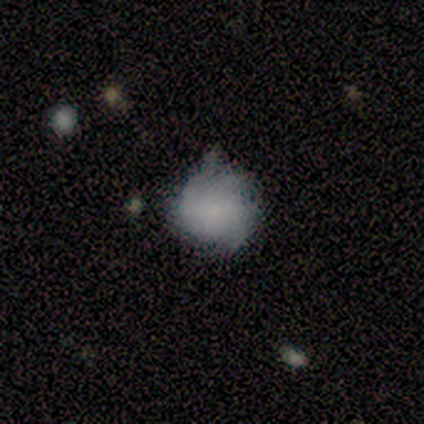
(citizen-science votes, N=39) Overall: smooth (74%). How rounded: round (90%). Merging: none (54%; minor disturbance 35%).